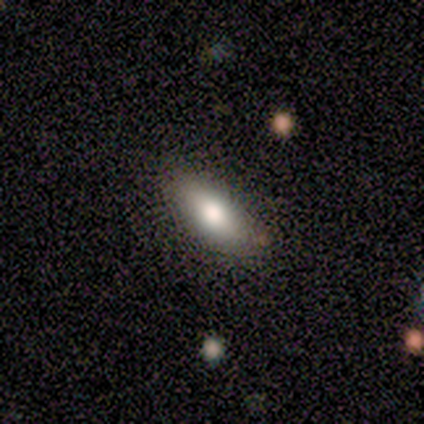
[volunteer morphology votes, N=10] Smooth or featured? 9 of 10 (90%) said smooth. How rounded? 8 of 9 (89%) said in between. Merging? 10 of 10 (100%) said none.